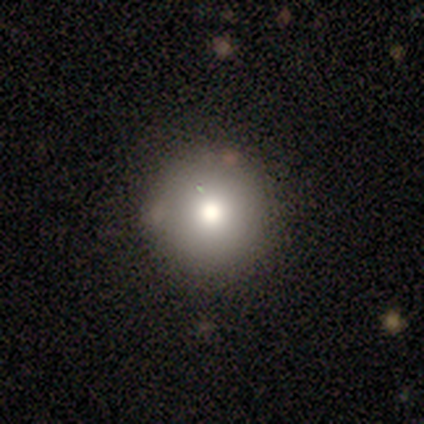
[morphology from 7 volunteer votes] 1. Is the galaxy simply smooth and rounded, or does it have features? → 71% smooth, 14% featured or disk, 14% star or artifact.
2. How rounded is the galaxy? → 100% round, 0% in between, 0% cigar-shaped.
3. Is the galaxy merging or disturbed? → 100% none, 0% minor disturbance, 0% major disturbance, 0% merger.